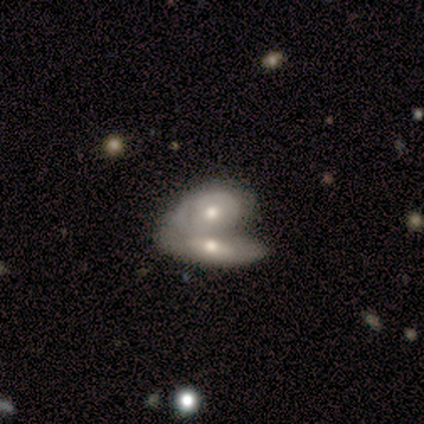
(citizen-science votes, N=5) A featured or disk galaxy (60%) with no bar (67%), no spiral arms (100%) and a moderate central bulge (67%). Merging: merger (100%).